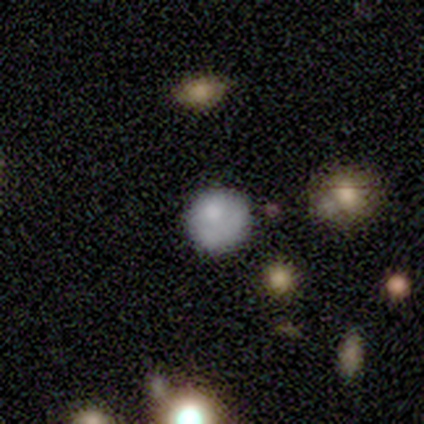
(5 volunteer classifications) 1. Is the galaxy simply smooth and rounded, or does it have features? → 60% featured or disk, 40% star or artifact, 0% smooth.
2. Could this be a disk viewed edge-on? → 100% no, 0% yes.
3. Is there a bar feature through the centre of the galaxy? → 100% no, 0% strong, 0% weak.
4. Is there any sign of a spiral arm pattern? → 100% no, 0% yes.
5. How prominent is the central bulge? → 67% moderate, 33% none, 0% dominant, 0% large, 0% small.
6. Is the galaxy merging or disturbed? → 67% minor disturbance, 33% none, 0% major disturbance, 0% merger.